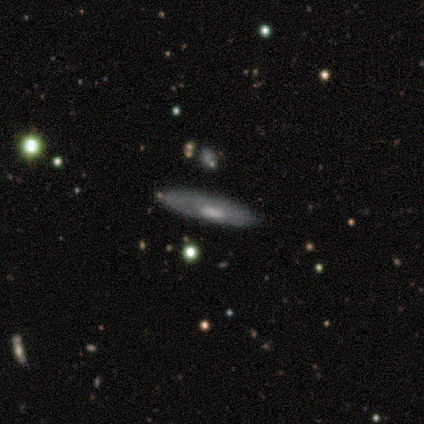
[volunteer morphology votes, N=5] Q: Smooth or featured?
A: featured or disk (80%); runner-up: star or artifact (20%)
Q: Edge-on disk?
A: yes (75%); runner-up: no (25%)
Q: Edge-on bulge?
A: none (67%); runner-up: boxy (33%)
Q: Merging?
A: none (100%)